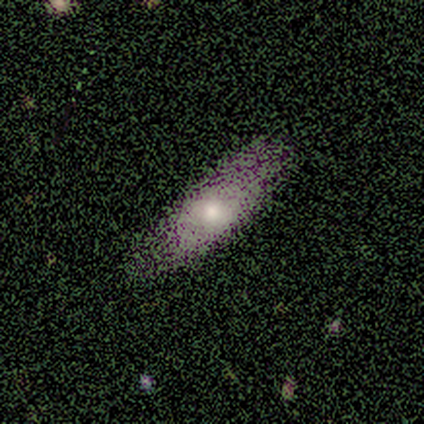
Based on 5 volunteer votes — Q: Smooth or featured?
A: smooth (40%); tied with: star or artifact (40%)
Q: How rounded?
A: in between (100%)
Q: Merging?
A: none (67%); runner-up: minor disturbance (33%)